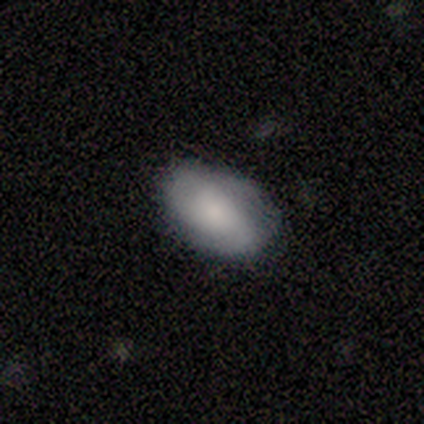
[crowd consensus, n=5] Smooth or featured?
  - smooth: 60% *
  - featured or disk: 20%
  - star or artifact: 20%
How rounded?
  - in between: 100% *
  - round: 0%
  - cigar-shaped: 0%
Merging?
  - none: 50% * (tied)
  - minor disturbance: 50% * (tied)
  - major disturbance: 0%
  - merger: 0%